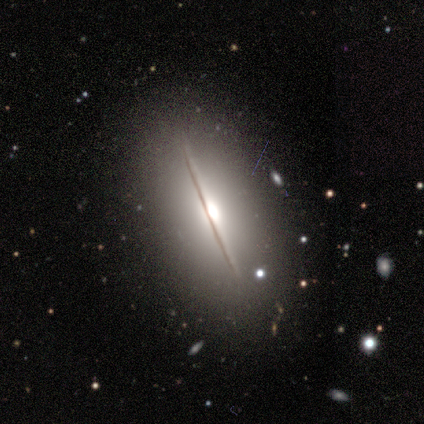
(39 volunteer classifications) Smooth or featured? featured or disk (79%)
Edge-on disk? yes (90%)
Edge-on bulge? rounded (100%)
Merging? none (92%)